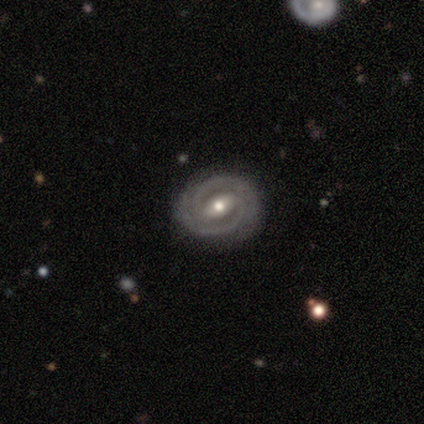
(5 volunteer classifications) Smooth or featured? featured or disk (80%)
Edge-on disk? no (100%)
Bar? strong (50%, tied with weak)
Spiral arms? yes (75%)
Spiral winding? tight (100%)
Spiral arm count? 2 (67%)
Bulge size? moderate (50%, tied with small)
Merging? none (60%)